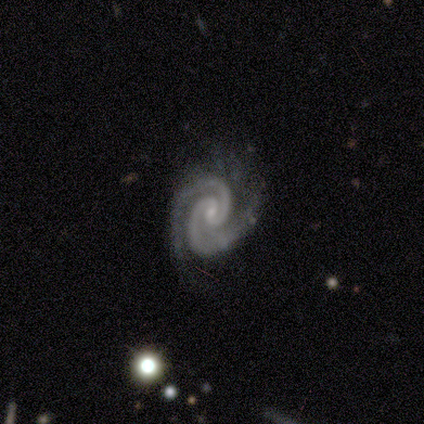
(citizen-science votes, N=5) smooth-or-featured: featured or disk: 100% | smooth: 0% | star or artifact: 0%
  disk-edge-on: no: 100% | yes: 0%
    bar: no: 60% | weak: 40% | strong: 0%
    has-spiral-arms: yes: 100% | no: 0%
      spiral-winding: tight: 60% | medium: 40% | loose: 0%
      spiral-arm-count: 2: 100% | 1: 0% | 3: 0% | 4: 0% | more than 4: 0% | can't tell: 0%
    bulge-size: small: 80% | none: 20% | dominant: 0% | large: 0% | moderate: 0%
  merging: none: 100% | minor disturbance: 0% | major disturbance: 0% | merger: 0%